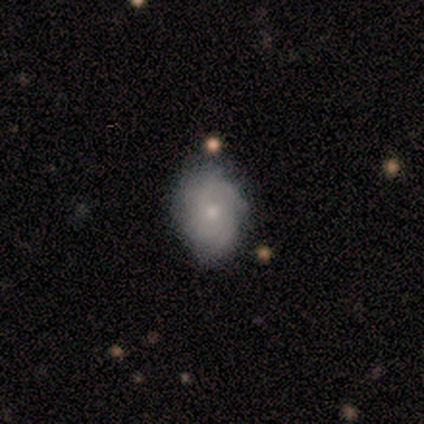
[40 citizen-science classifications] Q: Smooth or featured?
A: featured or disk (65%); runner-up: smooth (32%)
Q: Edge-on disk?
A: no (100%)
Q: Bar?
A: no (88%); runner-up: weak (12%)
Q: Spiral arms?
A: yes (92%); runner-up: no (8%)
Q: Spiral winding?
A: tight (62%); runner-up: medium (33%)
Q: Spiral arm count?
A: can't tell (54%); runner-up: more than 4 (17%)
Q: Bulge size?
A: small (50%); runner-up: moderate (46%)
Q: Merging?
A: none (72%); runner-up: minor disturbance (10%)